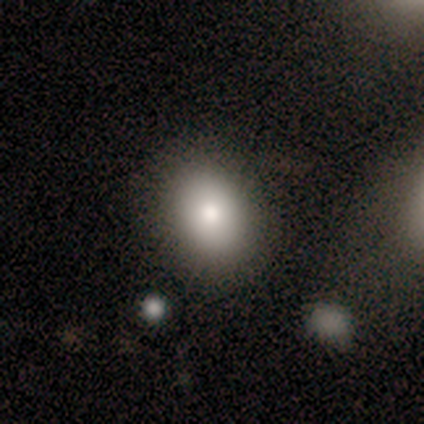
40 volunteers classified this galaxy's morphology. smooth_or_featured: smooth (p=0.70) [alt: featured or disk p=0.17]
how_rounded: in between (p=0.79) [alt: round p=0.21]
merging: none (p=0.80) [alt: minor disturbance p=0.17]